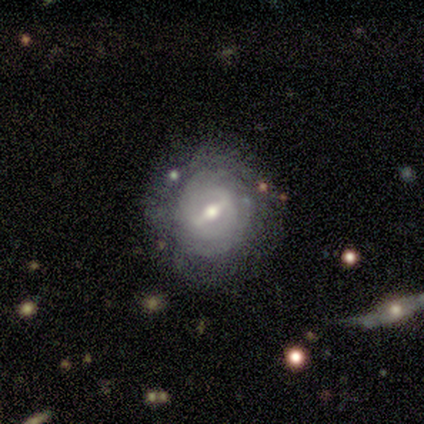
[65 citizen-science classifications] Q: Smooth or featured?
A: featured or disk (78%); runner-up: smooth (15%)
Q: Edge-on disk?
A: no (92%); runner-up: yes (8%)
Q: Bar?
A: strong (62%); runner-up: weak (38%)
Q: Spiral arms?
A: yes (53%); runner-up: no (47%)
Q: Spiral winding?
A: tight (80%); runner-up: medium (16%)
Q: Spiral arm count?
A: can't tell (52%); runner-up: 2 (40%)
Q: Bulge size?
A: moderate (72%); runner-up: small (19%)
Q: Merging?
A: none (62%); runner-up: minor disturbance (30%)